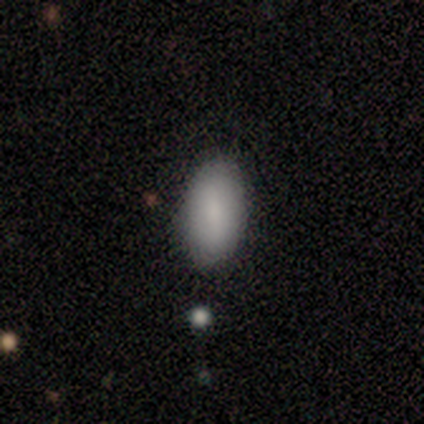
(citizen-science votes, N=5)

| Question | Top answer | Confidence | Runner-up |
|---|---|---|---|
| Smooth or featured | smooth | 100% | — |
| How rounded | in between | 100% | — |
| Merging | none | 100% | — |